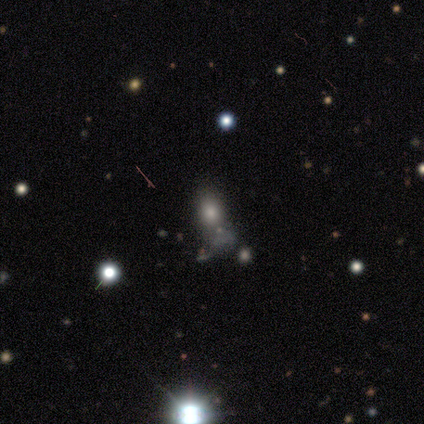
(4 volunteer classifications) A smooth galaxy with no disk features (50%) that is in between round and cigar-shaped (100%).

Vote fractions:
- Smooth or featured? smooth: 50% / featured or disk: 25% / star or artifact: 25%
- How rounded? in between: 100% / round: 0% / cigar-shaped: 0%
- Merging? none: 33% (tied) / minor disturbance: 33% (tied) / merger: 33% (tied) / major disturbance: 0%